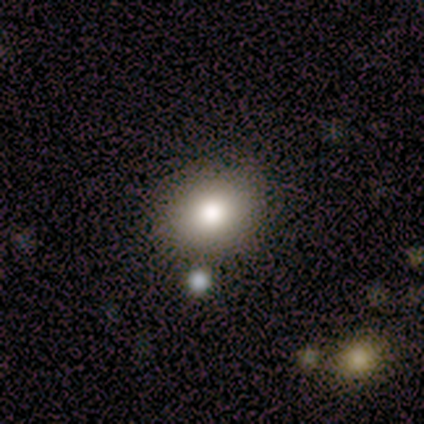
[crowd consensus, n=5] A smooth galaxy with no disk features (100%) that is round (80%).

Vote fractions:
- Smooth or featured? smooth: 100% / featured or disk: 0% / star or artifact: 0%
- How rounded? round: 80% / in between: 20% / cigar-shaped: 0%
- Merging? none: 60% / minor disturbance: 40% / major disturbance: 0% / merger: 0%